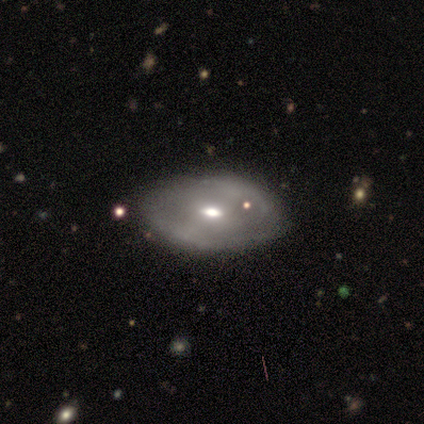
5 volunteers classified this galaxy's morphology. smooth-or-featured: featured or disk: 100% | smooth: 0% | star or artifact: 0%
  disk-edge-on: no: 100% | yes: 0%
    bar: no: 60% | weak: 40% | strong: 0%
    has-spiral-arms: no: 60% | yes: 40%
    bulge-size: moderate: 60% | large: 20% | small: 20% | dominant: 0% | none: 0%
  merging: none: 100% | minor disturbance: 0% | major disturbance: 0% | merger: 0%